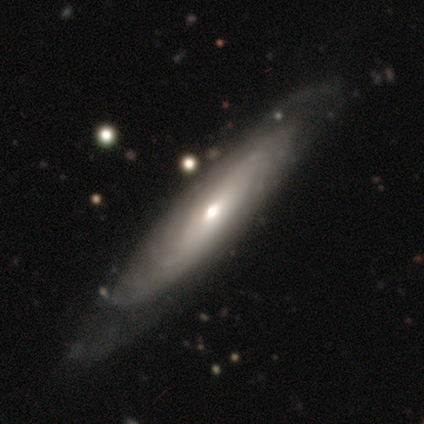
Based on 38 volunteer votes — A featured or disk galaxy (79%) viewed edge-on (50%, tied with no) with a rounded central bulge (93%).

Vote fractions:
- Smooth or featured? featured or disk: 79% / smooth: 21% / star or artifact: 0%
- Edge-on disk? yes: 50% (tied) / no: 50% (tied)
- Edge-on bulge? rounded: 93% / none: 7% / boxy: 0%
- Merging? none: 84% / major disturbance: 11% / minor disturbance: 3% / merger: 3%